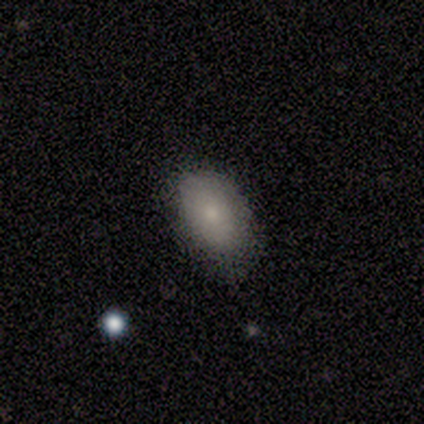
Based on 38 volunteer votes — Q: Smooth or featured?
A: smooth (87%); runner-up: star or artifact (8%)
Q: How rounded?
A: in between (91%); runner-up: round (9%)
Q: Merging?
A: none (77%); runner-up: minor disturbance (20%)